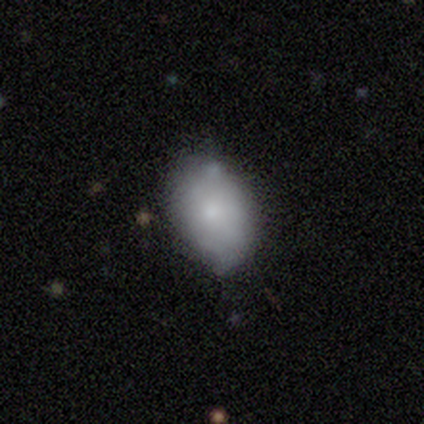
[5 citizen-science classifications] Q: Smooth or featured?
A: smooth (100%)
Q: How rounded?
A: in between (100%)
Q: Merging?
A: none (60%); runner-up: minor disturbance (40%)